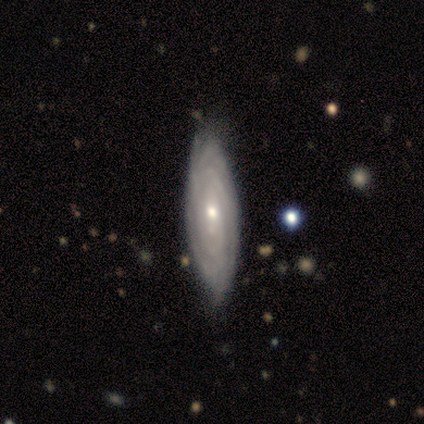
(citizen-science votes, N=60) Volunteers were most divided on "bulge size": small: 50%, moderate: 43%, large: 5%, none: 2%, dominant: 0%. More confident: spiral arms — yes (98%); smooth or featured — featured or disk (87%); edge-on disk — no (85%); spiral winding — tight (84%); bar — no (77%); merging — none (59%); spiral arm count — can't tell (53%).